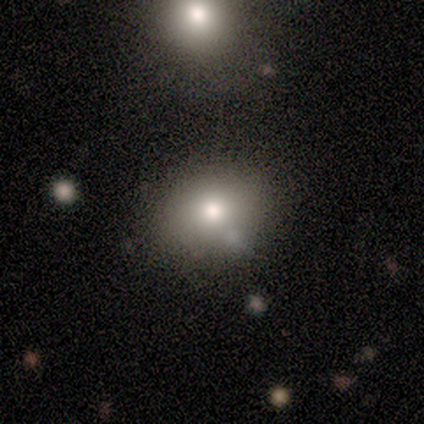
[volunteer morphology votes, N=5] smooth_or_featured: smooth (p=0.60) [alt: featured or disk p=0.40]
how_rounded: round (p=1.00)
merging: minor disturbance (p=0.60) [alt: none p=0.40]